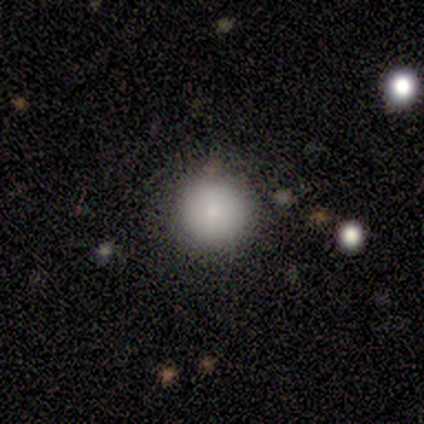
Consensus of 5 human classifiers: Smooth or featured?
  - smooth: 100% *
  - featured or disk: 0%
  - star or artifact: 0%
How rounded?
  - round: 100% *
  - in between: 0%
  - cigar-shaped: 0%
Merging?
  - none: 80% *
  - merger: 20%
  - minor disturbance: 0%
  - major disturbance: 0%